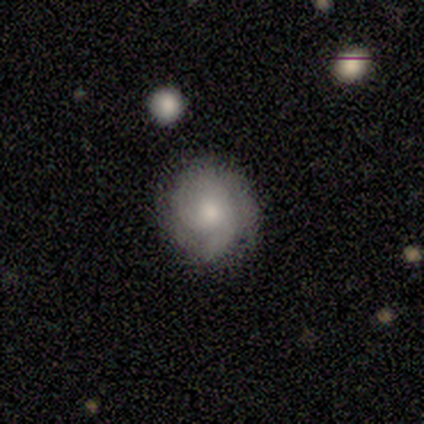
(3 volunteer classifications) This is likely a featured or disk galaxy (67%). It is clearly not viewed edge-on (100%). Bar: clearly no (100%). Spiral arm pattern: clearly yes (100%). Spiral arm count: possibly 2 (50%, tied with can't tell). Spiral winding: clearly tight (100%). Central bulge: possibly moderate (50%, tied with small). Merging: clearly none (100%).